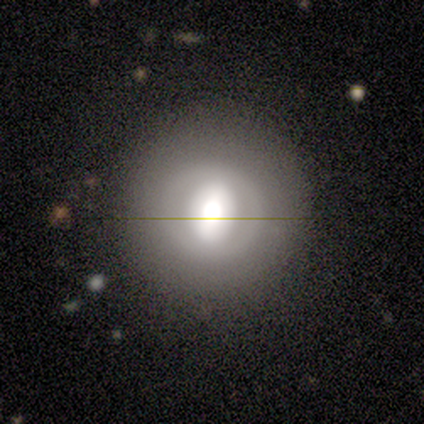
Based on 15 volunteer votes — This appears to be a smooth galaxy with no disk features (73%) that is round (91%). Merging: none (93%).